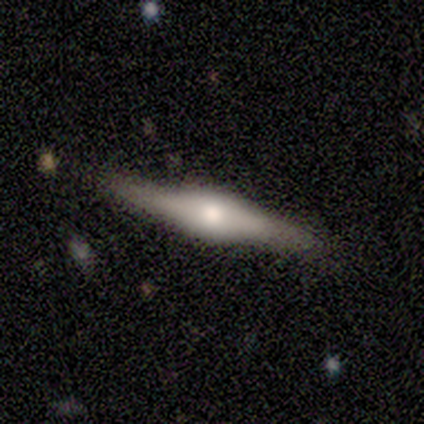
This appears to be a featured or disk galaxy (82%) viewed edge-on (94%) with a rounded central bulge (71%). Merging: none (79%).